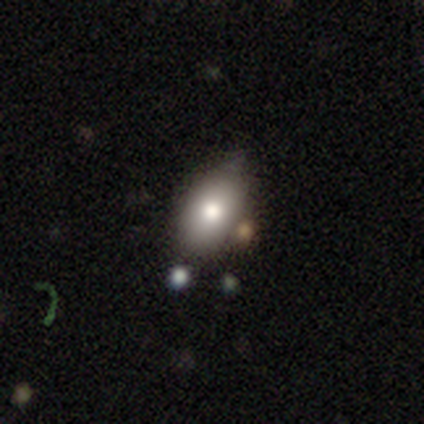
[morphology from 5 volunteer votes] Smooth or featured? 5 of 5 (100%) said smooth. How rounded? 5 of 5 (100%) said in between. Merging? 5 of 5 (100%) said none.